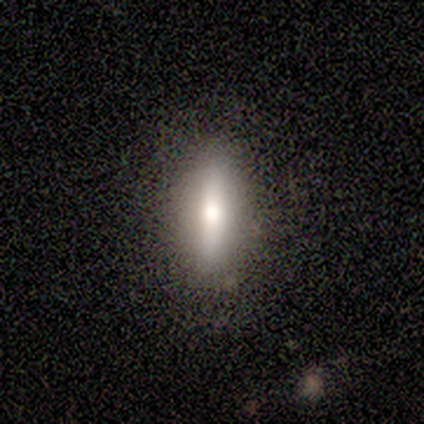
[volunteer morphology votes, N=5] Smooth or featured? 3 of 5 (60%) said smooth. How rounded? 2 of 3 (67%) said in between. Merging? 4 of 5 (80%) said none.